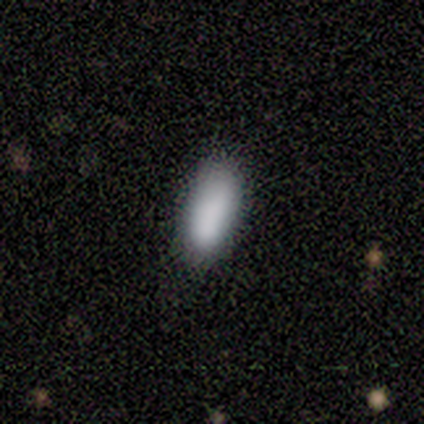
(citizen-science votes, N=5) Volunteers were most divided on "merging": minor disturbance: 60%, none: 40%, major disturbance: 0%, merger: 0%. More confident: smooth or featured — smooth (100%); how rounded — in between (100%).